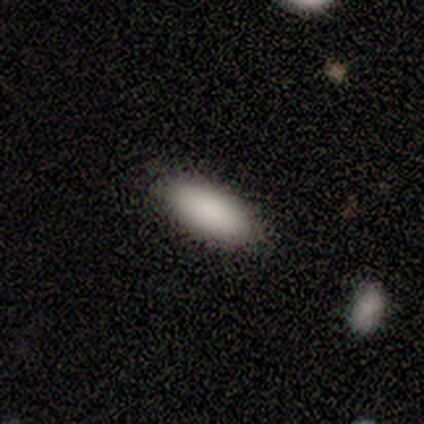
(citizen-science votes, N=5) smooth-or-featured: smooth: 80% | featured or disk: 20% | star or artifact: 0%
  how-rounded: in between: 100% | round: 0% | cigar-shaped: 0%
  merging: none: 100% | minor disturbance: 0% | major disturbance: 0% | merger: 0%